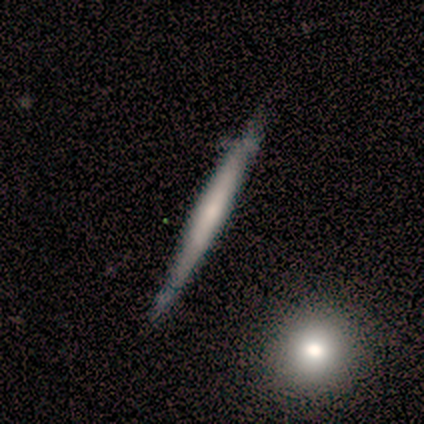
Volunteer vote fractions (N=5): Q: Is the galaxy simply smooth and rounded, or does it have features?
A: smooth — 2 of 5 (40%, tied with featured or disk).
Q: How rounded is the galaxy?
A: cigar-shaped — 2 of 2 (100%).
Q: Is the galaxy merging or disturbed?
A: none — 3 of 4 (75%).